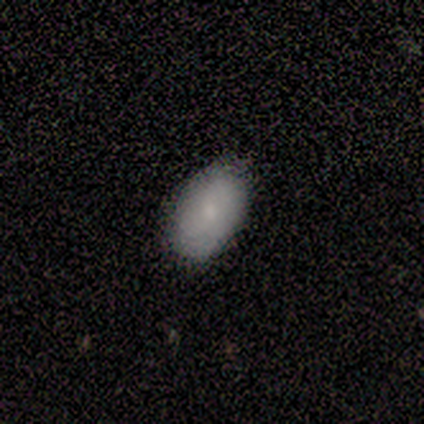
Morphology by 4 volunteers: A smooth galaxy with no disk features (75%) that is in between round and cigar-shaped (100%).

Vote fractions:
- Smooth or featured? smooth: 75% / star or artifact: 25% / featured or disk: 0%
- How rounded? in between: 100% / round: 0% / cigar-shaped: 0%
- Merging? none: 67% / minor disturbance: 33% / major disturbance: 0% / merger: 0%